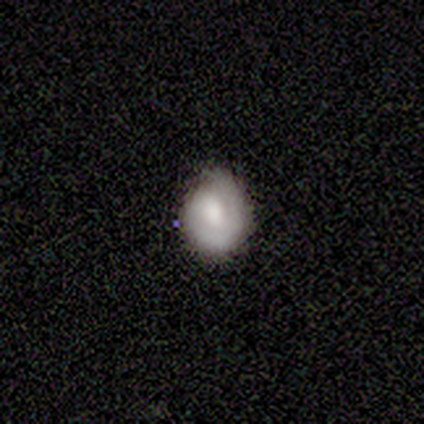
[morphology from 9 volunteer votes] This is marginally a smooth galaxy (44%, tied with featured or disk). How rounded: possibly round (50%, tied with in between). Merging: likely none (62%).